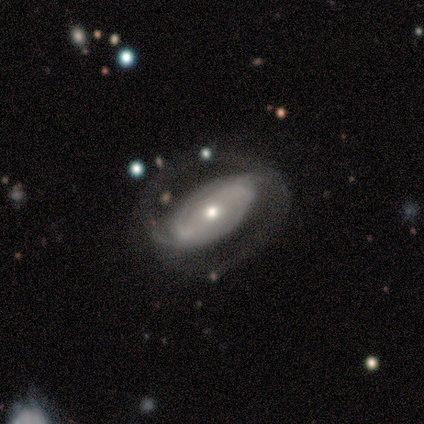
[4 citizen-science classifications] Smooth or featured? 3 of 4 (75%) said featured or disk. Edge-on disk? 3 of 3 (100%) said no. Bar? 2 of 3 (67%) said strong. Spiral arms? 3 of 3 (100%) said yes. Spiral winding? 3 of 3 (100%) said tight. Spiral arm count? 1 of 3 (33%, tied with 3 and can't tell) said 2. Bulge size? 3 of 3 (100%) said moderate. Merging? 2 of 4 (50%) said none.